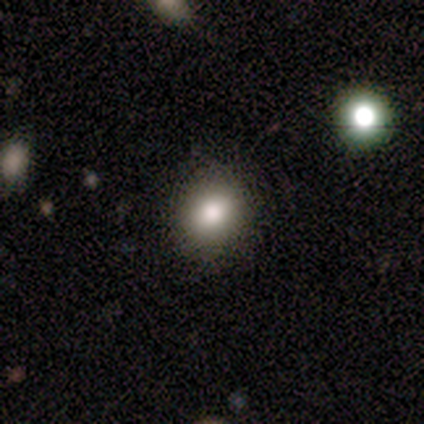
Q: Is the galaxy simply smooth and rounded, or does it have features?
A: smooth — 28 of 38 (74%).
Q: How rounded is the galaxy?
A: round — 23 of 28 (82%).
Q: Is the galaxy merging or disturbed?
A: none — 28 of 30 (93%).